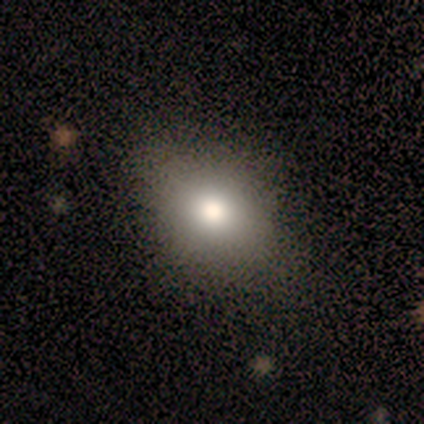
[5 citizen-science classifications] smooth-or-featured: smooth: 80% | star or artifact: 20% | featured or disk: 0%
  how-rounded: in between: 100% | round: 0% | cigar-shaped: 0%
  merging: none: 100% | minor disturbance: 0% | major disturbance: 0% | merger: 0%